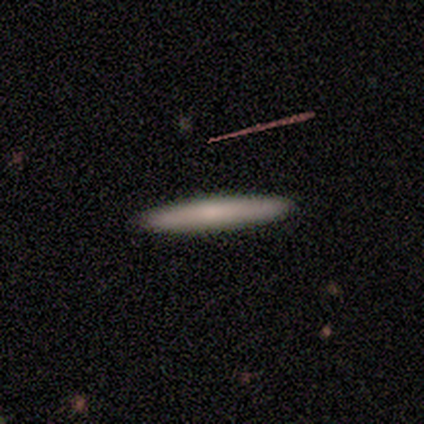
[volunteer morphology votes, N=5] This appears to be a smooth galaxy with no disk features (100%) that is cigar-shaped (100%). Merging: none (100%).